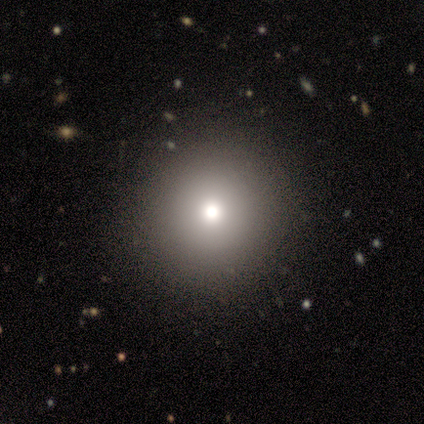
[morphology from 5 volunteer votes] type=smooth (60%); roundness=round (100%); merging=none (100%).